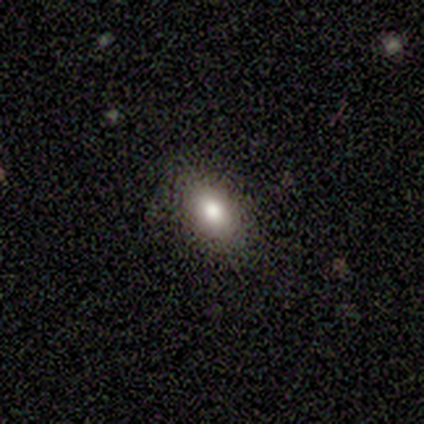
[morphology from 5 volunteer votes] A smooth galaxy with no disk features (80%) that is in between round and cigar-shaped (100%).

Vote fractions:
- Smooth or featured? smooth: 80% / featured or disk: 20% / star or artifact: 0%
- How rounded? in between: 100% / round: 0% / cigar-shaped: 0%
- Merging? none: 80% / minor disturbance: 20% / major disturbance: 0% / merger: 0%